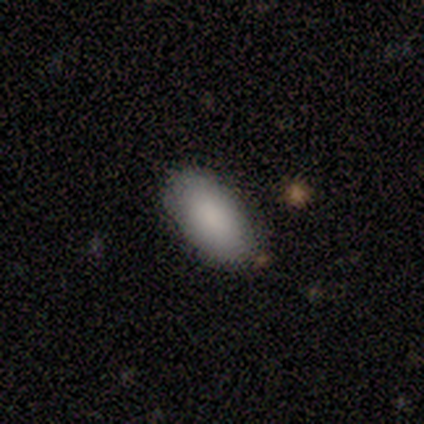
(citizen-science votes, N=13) A smooth galaxy with no disk features (85%) that is in between round and cigar-shaped (100%).

Vote fractions:
- Smooth or featured? smooth: 85% / featured or disk: 8% / star or artifact: 8%
- How rounded? in between: 100% / round: 0% / cigar-shaped: 0%
- Merging? none: 75% / minor disturbance: 8% / major disturbance: 8% / merger: 8%